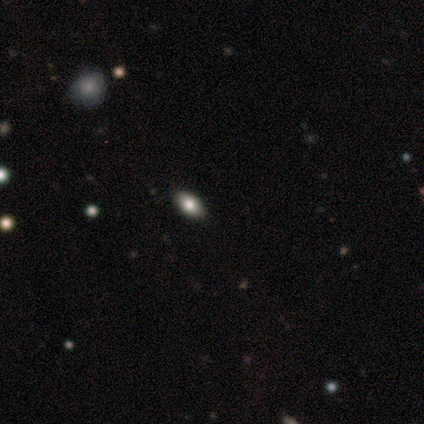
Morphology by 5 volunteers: This appears to be a smooth galaxy with no disk features (80%) that is in between round and cigar-shaped (100%). Merging: none (60%).